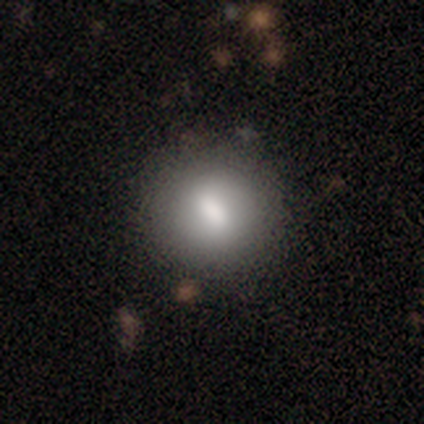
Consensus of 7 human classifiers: Smooth or featured? smooth (57%)
How rounded? round (100%)
Merging? none (100%)